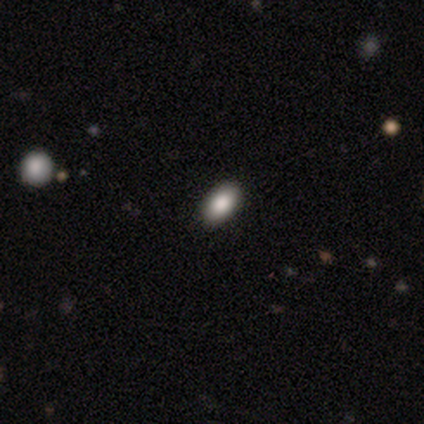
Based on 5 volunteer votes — Smooth or featured?
  - smooth: 80% *
  - star or artifact: 20%
  - featured or disk: 0%
How rounded?
  - in between: 75% *
  - round: 25%
  - cigar-shaped: 0%
Merging?
  - none: 100% *
  - minor disturbance: 0%
  - major disturbance: 0%
  - merger: 0%